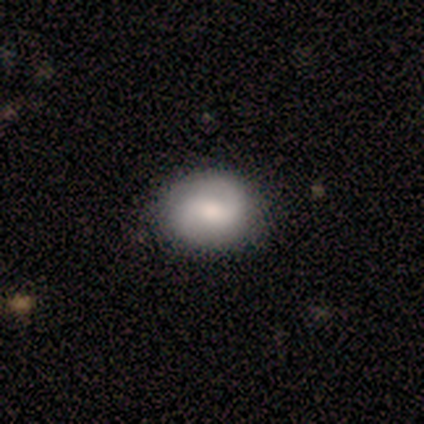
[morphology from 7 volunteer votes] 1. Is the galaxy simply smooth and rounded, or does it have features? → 71% featured or disk, 29% smooth, 0% star or artifact.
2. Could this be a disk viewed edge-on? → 100% no, 0% yes.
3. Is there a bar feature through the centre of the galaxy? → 80% weak, 20% no, 0% strong.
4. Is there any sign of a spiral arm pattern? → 100% yes, 0% no.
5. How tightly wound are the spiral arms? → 80% loose, 20% medium, 0% tight.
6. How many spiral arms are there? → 100% 2, 0% 1, 0% 3, 0% 4, 0% more than 4, 0% can't tell.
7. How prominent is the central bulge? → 80% moderate, 20% small, 0% dominant, 0% large, 0% none.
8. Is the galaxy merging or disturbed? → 71% none, 29% minor disturbance, 0% major disturbance, 0% merger.